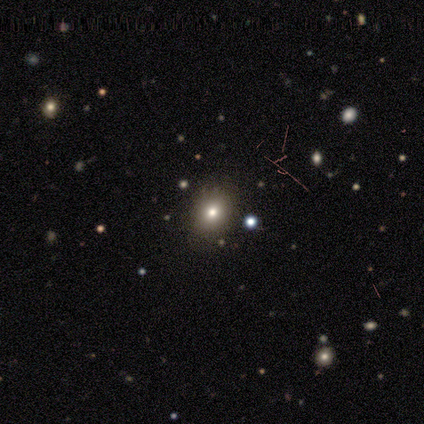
This is likely a smooth galaxy (67%). How rounded: possibly round (50%, tied with in between). Merging: possibly none (50%, tied with minor disturbance).